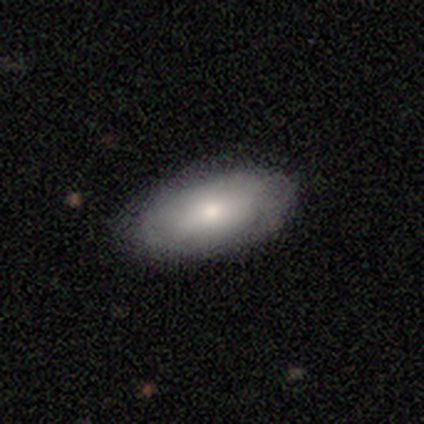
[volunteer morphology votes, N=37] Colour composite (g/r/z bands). It shows a smooth galaxy with no disk features (70%) that is in between round and cigar-shaped (100%). Merging: none (80%).